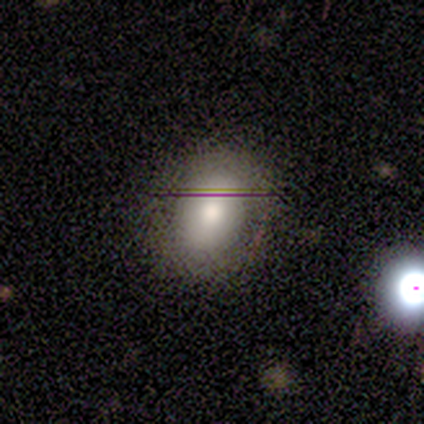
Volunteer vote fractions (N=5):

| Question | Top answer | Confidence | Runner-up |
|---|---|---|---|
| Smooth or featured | smooth | 80% | featured or disk (20%) |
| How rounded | round | 50% | tied: in between (50%) |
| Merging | none | 60% | minor disturbance (40%) |